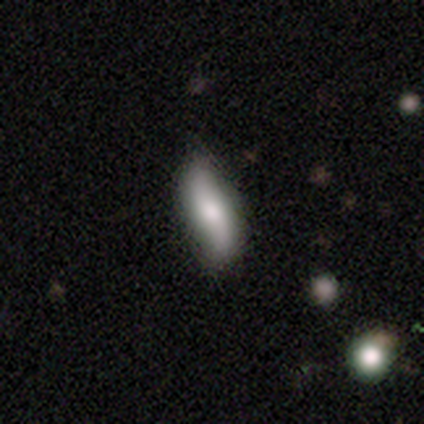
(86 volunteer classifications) Q: Smooth or featured?
A: smooth (45%); runner-up: featured or disk (43%)
Q: How rounded?
A: in between (54%); runner-up: cigar-shaped (46%)
Q: Merging?
A: none (71%); runner-up: minor disturbance (24%)